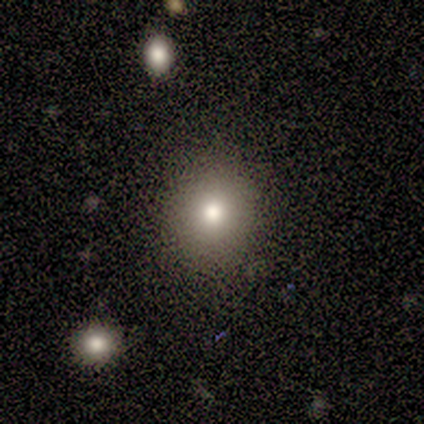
Smooth or featured?
  - featured or disk: 50% *
  - smooth: 25%
  - star or artifact: 25%
Edge-on disk?
  - no: 100% *
  - yes: 0%
Bar?
  - no: 100% *
  - strong: 0%
  - weak: 0%
Spiral arms?
  - no: 100% *
  - yes: 0%
Bulge size?
  - moderate: 50% * (tied)
  - small: 50% * (tied)
  - dominant: 0%
  - large: 0%
  - none: 0%
Merging?
  - none: 100% *
  - minor disturbance: 0%
  - major disturbance: 0%
  - merger: 0%